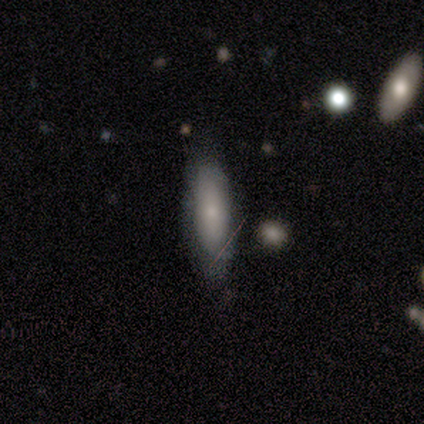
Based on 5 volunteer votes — Smooth or featured? smooth (80%)
How rounded? in between (50%, tied with cigar-shaped)
Merging? none (100%)